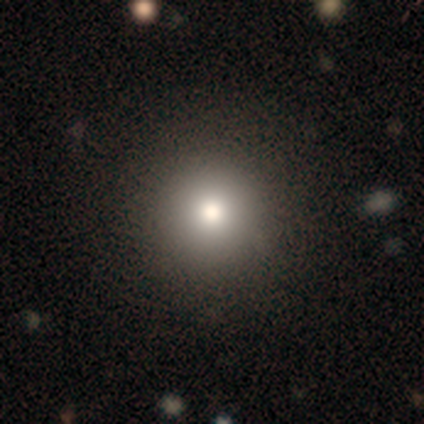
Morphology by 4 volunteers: This is likely a smooth galaxy (75%). How rounded: clearly round (100%). Merging: clearly none (100%).